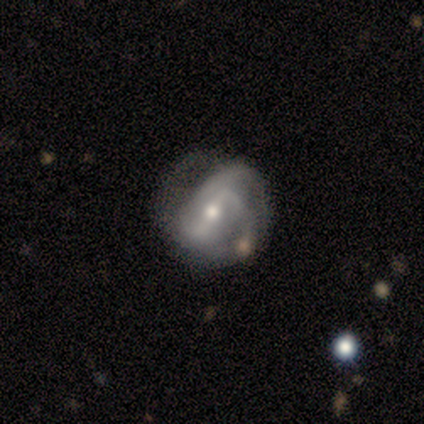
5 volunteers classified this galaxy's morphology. Smooth or featured: featured or disk — 60% (smooth — 40%)
Edge-on disk: no — 100%
Bar: strong — 67% (weak — 33%)
Spiral arms: yes — 100%
Spiral winding: tight — 33% (tied with medium — 33%; loose — 33%)
Spiral arm count: 2 — 100%
Bulge size: small — 67% (moderate — 33%)
Merging: minor disturbance — 40% (tied with major disturbance — 40%)